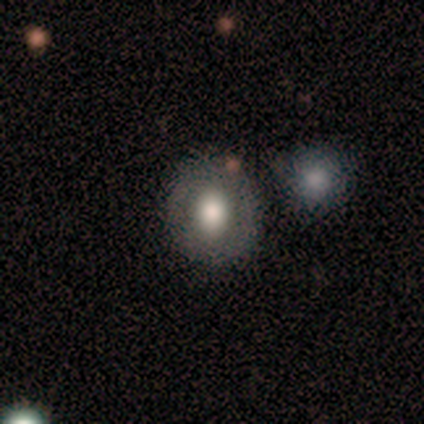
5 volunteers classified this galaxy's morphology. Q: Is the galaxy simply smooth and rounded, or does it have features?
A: smooth — 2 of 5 (40%, tied with featured or disk).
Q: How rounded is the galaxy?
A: in between — 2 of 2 (100%).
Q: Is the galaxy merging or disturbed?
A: none — 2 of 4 (50%, tied with merger).